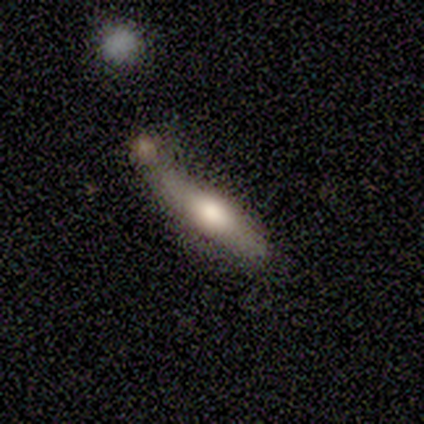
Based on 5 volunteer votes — A smooth galaxy with no disk features (60%) that is cigar-shaped (100%). Merging: none (40%, tied with merger).